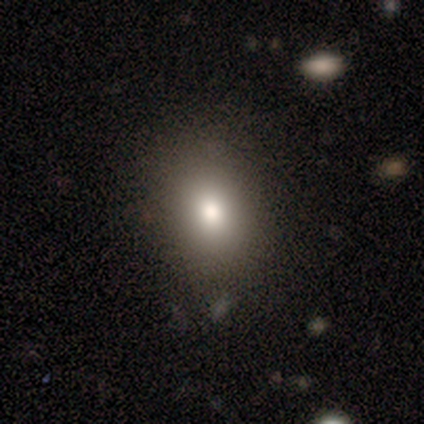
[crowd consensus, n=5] smooth-or-featured: smooth: 60% | featured or disk: 20% | star or artifact: 20%
  how-rounded: in between: 67% | round: 33% | cigar-shaped: 0%
  merging: none: 100% | minor disturbance: 0% | major disturbance: 0% | merger: 0%